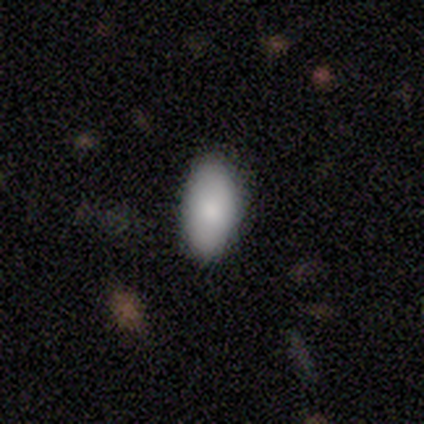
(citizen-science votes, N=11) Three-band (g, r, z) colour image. It shows a smooth galaxy with no disk features (82%) that is in between round and cigar-shaped (100%). Merging: none (80%).